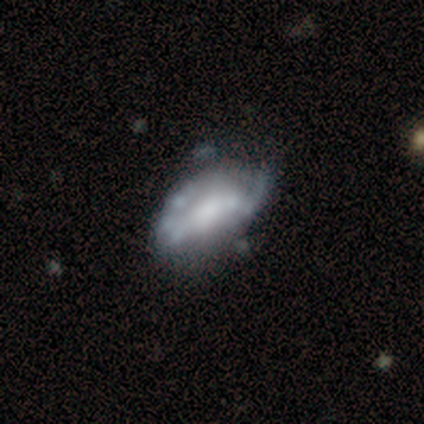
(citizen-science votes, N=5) This is clearly a featured or disk galaxy (80%). It is clearly not viewed edge-on (100%). Bar: likely no (75%). Spiral arm pattern: likely no (75%). Central bulge: possibly moderate (50%). Merging: likely minor disturbance (60%).